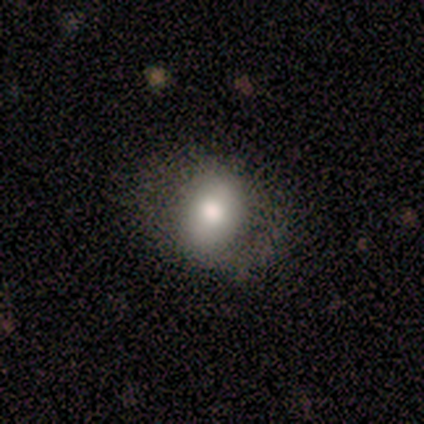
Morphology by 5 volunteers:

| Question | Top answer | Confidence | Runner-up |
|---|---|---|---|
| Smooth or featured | smooth | 80% | featured or disk (20%) |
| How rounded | round | 75% | in between (25%) |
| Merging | none | 80% | minor disturbance (20%) |